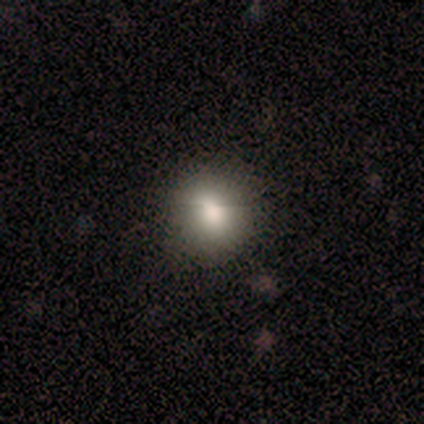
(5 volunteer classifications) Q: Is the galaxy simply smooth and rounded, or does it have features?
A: smooth — 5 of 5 (100%).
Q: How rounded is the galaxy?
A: round — 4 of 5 (80%).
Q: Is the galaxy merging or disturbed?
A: none — 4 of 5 (80%).